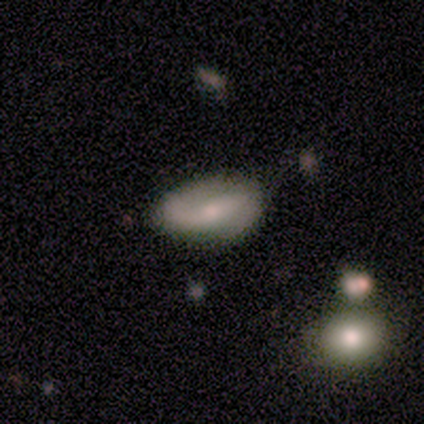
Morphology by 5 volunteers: Volunteers were most divided on "smooth or featured" (2-way tie): smooth: 40%, featured or disk: 40%, star or artifact: 20%. More confident: how rounded — in between (100%); merging — none (75%).